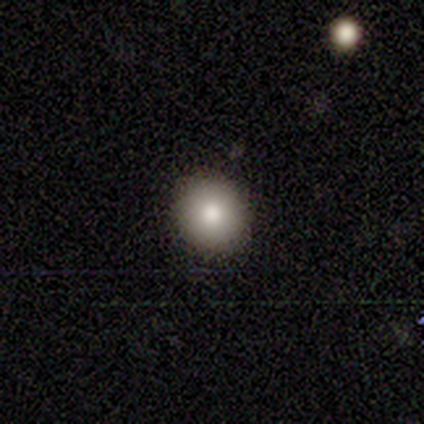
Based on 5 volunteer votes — Smooth or featured: smooth — 100%
How rounded: round — 100%
Merging: none — 100%